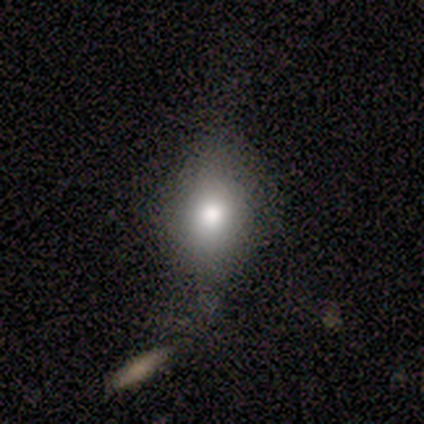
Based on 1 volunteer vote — smooth-or-featured: smooth: 100% | featured or disk: 0% | star or artifact: 0%
  how-rounded: in between: 100% | round: 0% | cigar-shaped: 0%
  merging: none: 100% | minor disturbance: 0% | major disturbance: 0% | merger: 0%